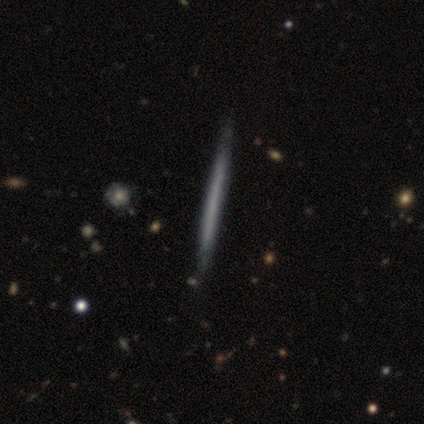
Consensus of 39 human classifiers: A featured or disk galaxy (67%) viewed edge-on (96%) with no central bulge (96%).

Vote fractions:
- Smooth or featured? featured or disk: 67% / smooth: 31% / star or artifact: 3%
- Edge-on disk? yes: 96% / no: 4%
- Edge-on bulge? none: 96% / boxy: 4% / rounded: 0%
- Merging? none: 55% / minor disturbance: 11% / merger: 3% / major disturbance: 0%